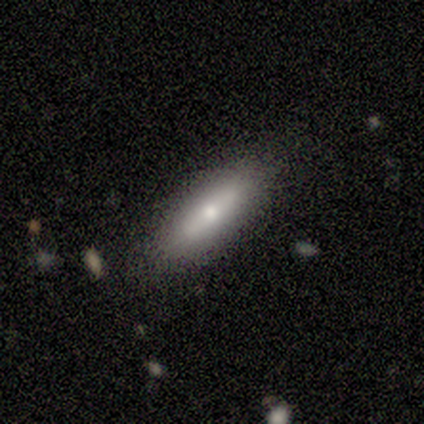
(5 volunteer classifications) Smooth or featured: featured or disk — 60% (smooth — 40%)
Edge-on disk: no — 67% (yes — 33%)
Bar: strong — 50% (tied with no — 50%)
Spiral arms: no — 100%
Bulge size: moderate — 50% (tied with small — 50%)
Merging: none — 60% (minor disturbance — 40%)